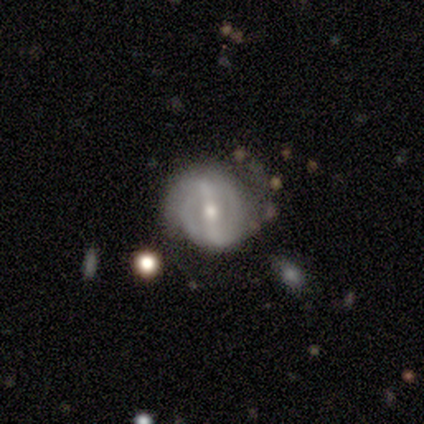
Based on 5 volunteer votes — Smooth or featured? featured or disk (80%)
Edge-on disk? no (100%)
Bar? strong (75%)
Spiral arms? yes (100%)
Spiral winding? tight (50%, tied with loose)
Spiral arm count? 2 (100%)
Bulge size? moderate (75%)
Merging? none (40%, tied with minor disturbance)